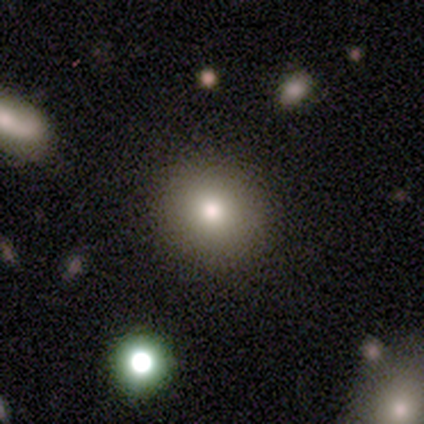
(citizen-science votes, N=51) Smooth or featured?
  - smooth: 80% *
  - featured or disk: 14%
  - star or artifact: 6%
How rounded?
  - round: 88% *
  - in between: 12%
  - cigar-shaped: 0%
Merging?
  - none: 96% *
  - minor disturbance: 2%
  - merger: 2%
  - major disturbance: 0%